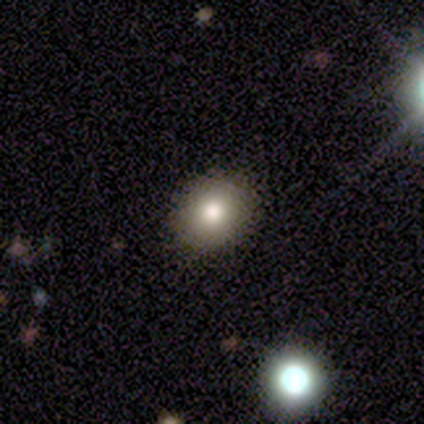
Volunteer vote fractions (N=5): Overall: smooth (60%; featured or disk 20%). How rounded: round (67%; in between 33%). Merging: none (100%).